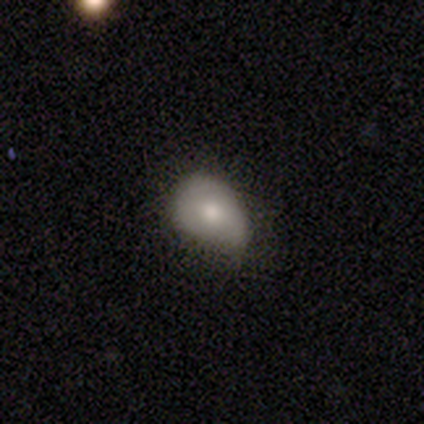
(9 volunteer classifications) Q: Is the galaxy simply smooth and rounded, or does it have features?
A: smooth — 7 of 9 (78%).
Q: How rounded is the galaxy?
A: in between — 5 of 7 (71%).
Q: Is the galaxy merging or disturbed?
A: minor disturbance — 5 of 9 (56%).